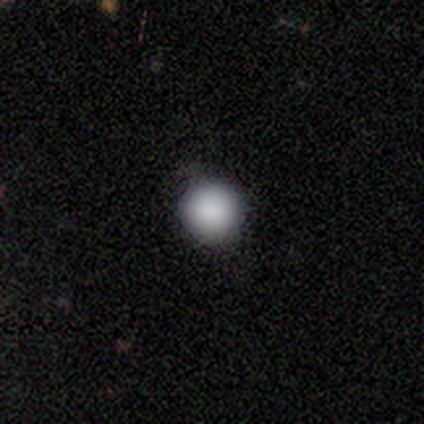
Volunteers were most divided on "smooth or featured": smooth: 90%, featured or disk: 5%, star or artifact: 5%. More confident: how rounded — round (97%); merging — none (95%).